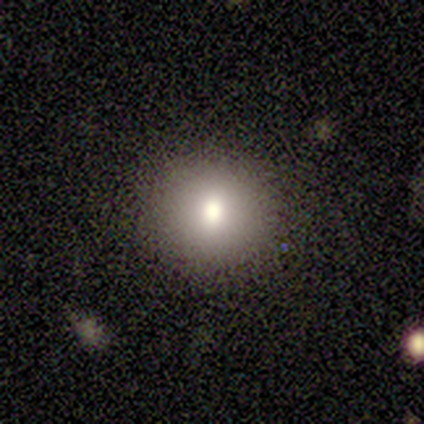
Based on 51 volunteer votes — Overall: smooth (78%). How rounded: round (90%). Merging: none (89%).